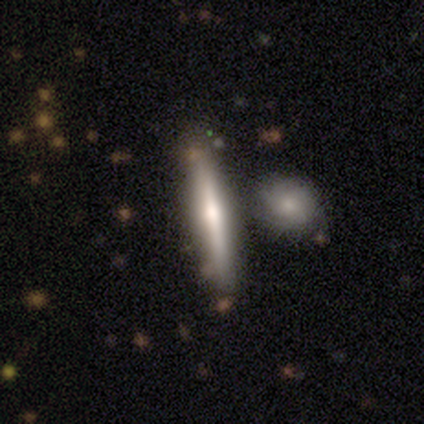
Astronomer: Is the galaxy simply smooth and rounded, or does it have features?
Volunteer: smooth — 40%, tied with featured or disk at 40%.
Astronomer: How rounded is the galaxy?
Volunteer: cigar-shaped — 100%.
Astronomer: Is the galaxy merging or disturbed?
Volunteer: none — 75%.